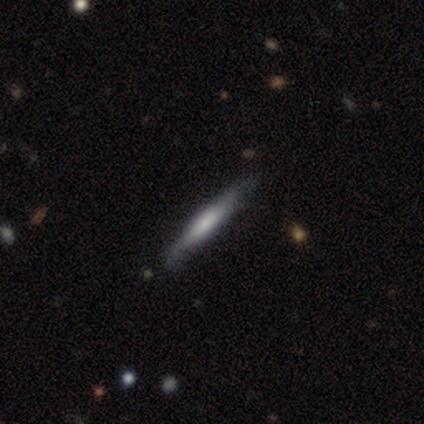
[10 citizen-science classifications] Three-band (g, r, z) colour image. It shows a smooth galaxy with no disk features (60%) that is cigar-shaped (100%). Merging: none (78%).